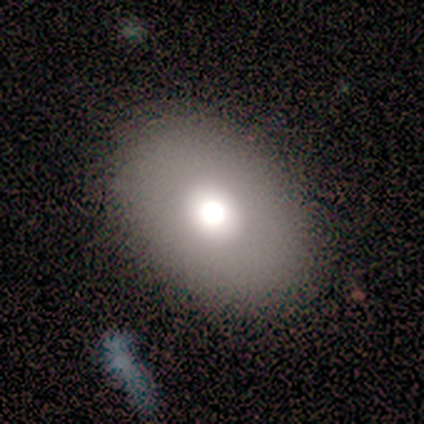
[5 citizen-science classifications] smooth 40% (tied), featured or disk 40% (tied), star or artifact 20%. Down the decision tree: how rounded — round (100%); merging — none (100%).